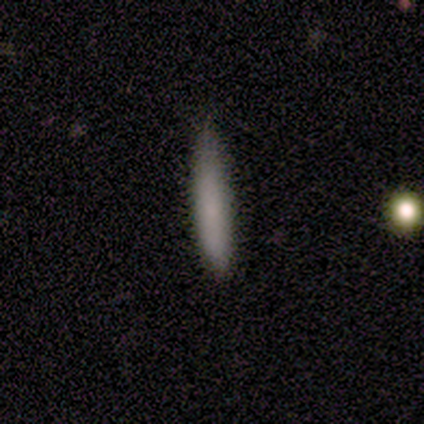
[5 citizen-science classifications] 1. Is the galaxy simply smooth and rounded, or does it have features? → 100% smooth, 0% featured or disk, 0% star or artifact.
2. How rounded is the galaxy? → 60% cigar-shaped, 40% in between, 0% round.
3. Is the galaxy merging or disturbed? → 60% minor disturbance, 40% none, 0% major disturbance, 0% merger.